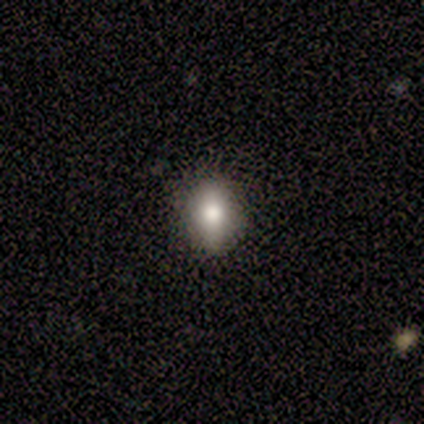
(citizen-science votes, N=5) This appears to be a smooth galaxy with no disk features (60%) that is round (67%). Merging: none (80%).